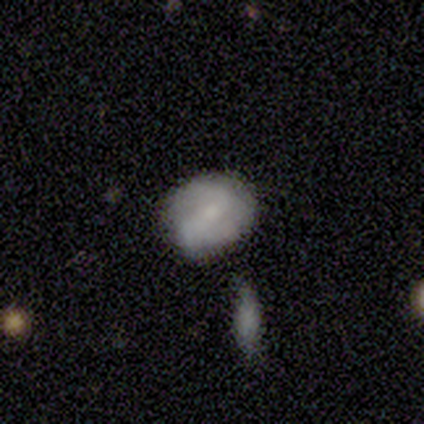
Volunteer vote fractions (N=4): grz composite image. It shows a featured or disk galaxy (50%) with a weak bar (50%, tied with no), 2 (50%, tied with can't tell) loose (100%) spiral arms (100%) and a moderate central bulge (50%, tied with small). Merging: none (100%).